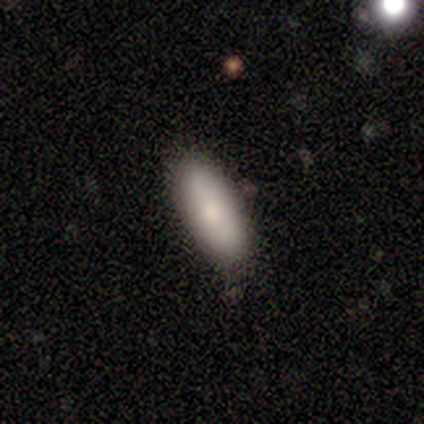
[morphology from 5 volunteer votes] Smooth or featured? smooth (80%)
How rounded? in between (75%)
Merging? none (80%)